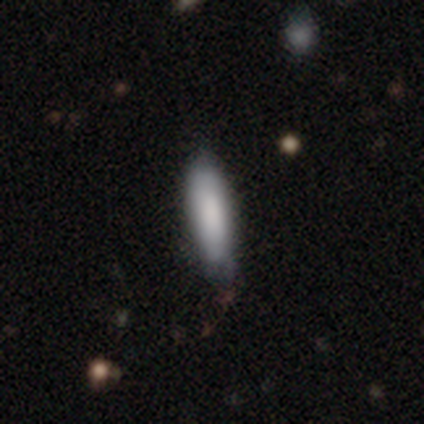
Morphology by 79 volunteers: type=smooth (82%); roundness=cigar-shaped (71%); merging=none (43%).